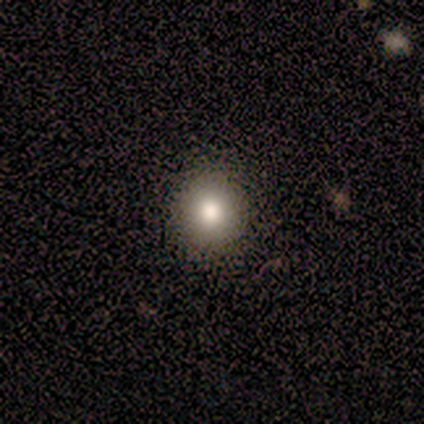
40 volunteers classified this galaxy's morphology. Q: Smooth or featured?
A: smooth (78%); runner-up: featured or disk (12%)
Q: How rounded?
A: round (90%); runner-up: in between (10%)
Q: Merging?
A: none (50%); runner-up: major disturbance (3%)